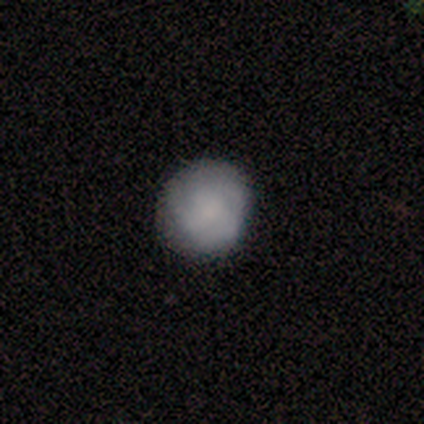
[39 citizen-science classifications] smooth-or-featured: smooth: 72% | featured or disk: 28% | star or artifact: 0%
  how-rounded: round: 96% | in between: 4% | cigar-shaped: 0%
  merging: none: 72% | minor disturbance: 8% | merger: 5% | major disturbance: 0%